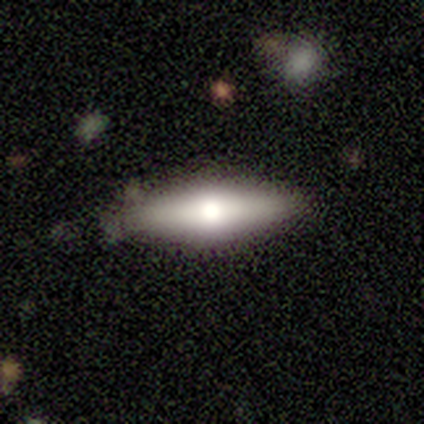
A smooth galaxy with no disk features (100%) that is in between round and cigar-shaped (75%). Merging: none (50%).